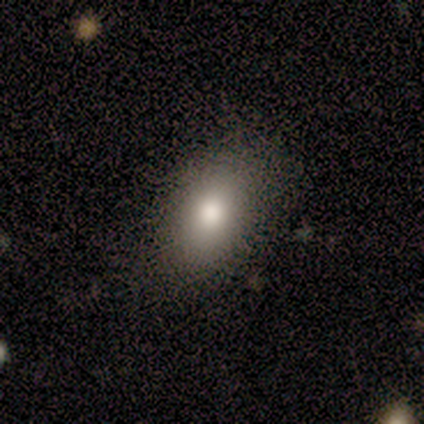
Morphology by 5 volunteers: smooth 80%, star or artifact 20%, featured or disk 0%. Down the decision tree: how rounded — in between (100%); merging — none (75%).